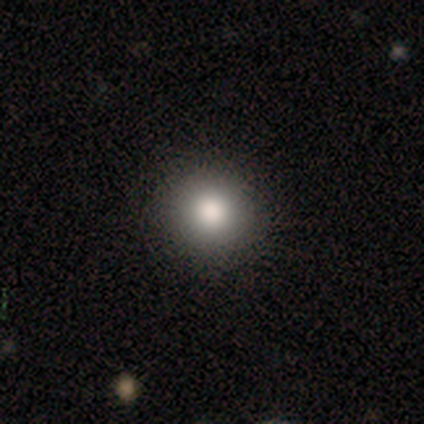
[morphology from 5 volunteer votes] This is clearly a smooth galaxy (100%). How rounded: clearly round (100%). Merging: clearly none (100%).